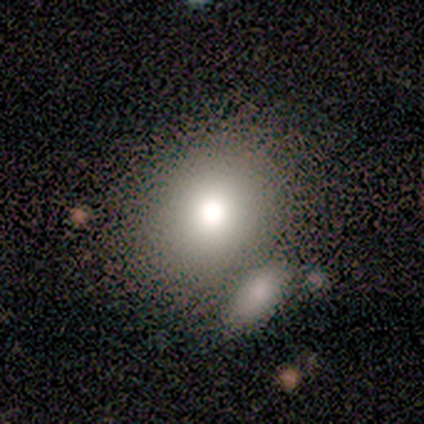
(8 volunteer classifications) smooth_or_featured: smooth (p=0.50) [alt: featured or disk p=0.25]
how_rounded: round (p=0.75) [alt: in between p=0.25]
merging: none (p=0.50) [alt: minor disturbance p=0.33]